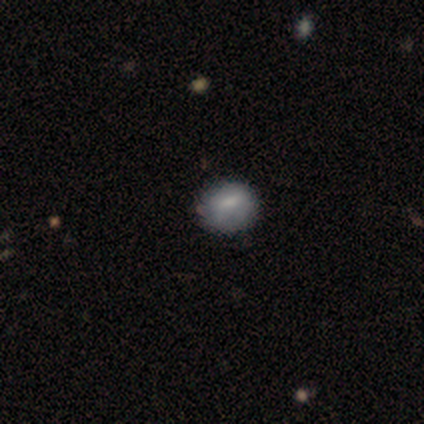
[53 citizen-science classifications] Volunteers were most divided on "how rounded": round: 51%, in between: 46%, cigar-shaped: 3%. More confident: merging — none (75%); smooth or featured — smooth (70%).